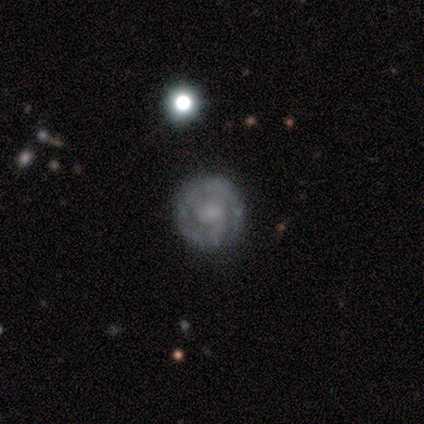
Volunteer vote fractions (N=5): Morphology: type=smooth (60%); roundness=round (100%); merging=none (80%).